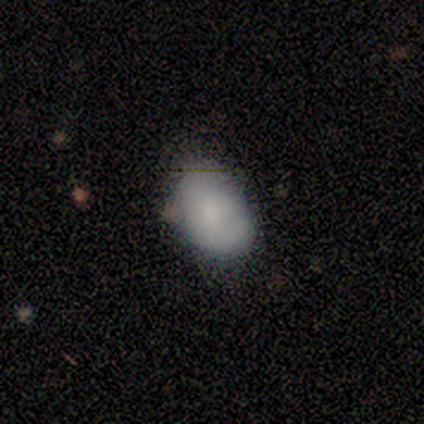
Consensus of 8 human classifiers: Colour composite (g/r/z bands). It shows a smooth galaxy with no disk features (88%) that is in between round and cigar-shaped (86%). Merging: none (75%).